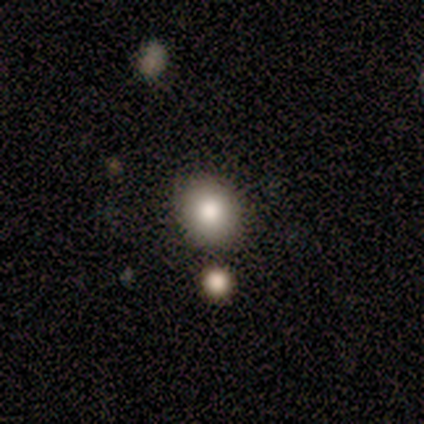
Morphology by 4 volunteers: This appears to be a smooth galaxy with no disk features (75%) that is round (67%). Merging: none (67%).